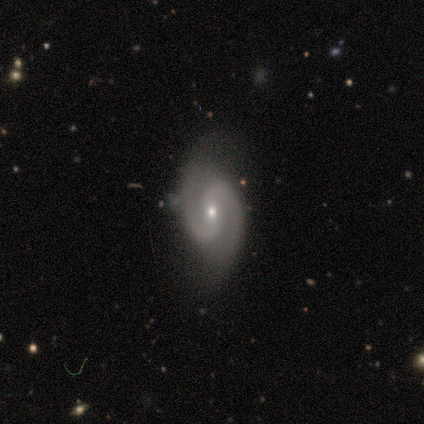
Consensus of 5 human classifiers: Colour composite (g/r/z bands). It shows a featured or disk galaxy (80%) with a strong bar (50%, tied with no), 2 (100%) medium (75%) spiral arms (100%) and a small central bulge (75%). Merging: none (60%).